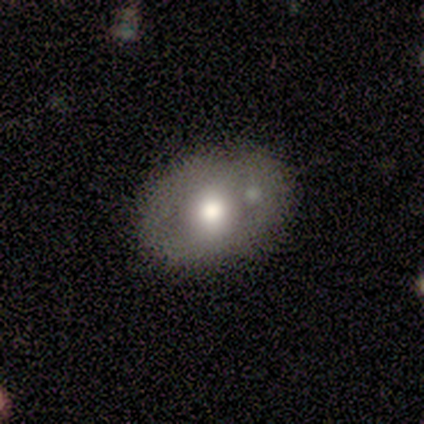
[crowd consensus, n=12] Morphology: type=smooth (58%); roundness=in between (71%); merging=none (64%).